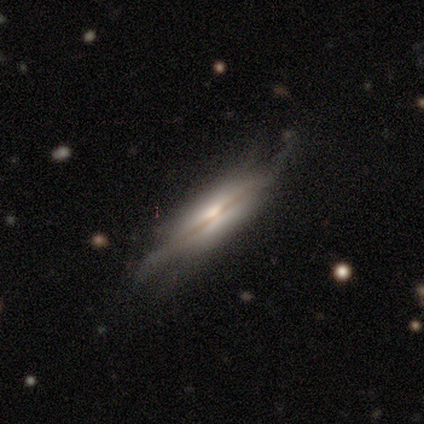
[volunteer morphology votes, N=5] Volunteers were most divided on "edge-on disk" (2-way tie): yes: 50%, no: 50%; "edge-on bulge" (2-way tie): none: 50%, rounded: 50%, boxy: 0%; "merging" (2-way tie): minor disturbance: 40%, major disturbance: 40%, none: 20%, merger: 0%. More confident: smooth or featured — featured or disk (80%).